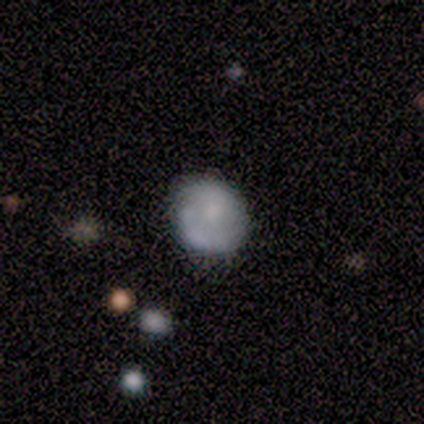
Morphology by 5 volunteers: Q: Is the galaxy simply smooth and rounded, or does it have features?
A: smooth — 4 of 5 (80%).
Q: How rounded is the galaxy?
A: round — 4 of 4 (100%).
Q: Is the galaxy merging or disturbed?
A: none — 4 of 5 (80%).